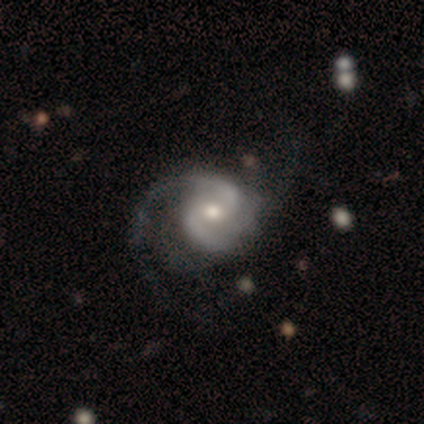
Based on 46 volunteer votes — Volunteers were most divided on "merging": none: 47%, major disturbance: 37%, minor disturbance: 16%, merger: 0%. Remaining: edge-on disk — no (100%); spiral arms — yes (97%); smooth or featured — featured or disk (85%); spiral arm count — 2 (84%); bulge size — moderate (79%); bar — no (62%); spiral winding — medium (47%).